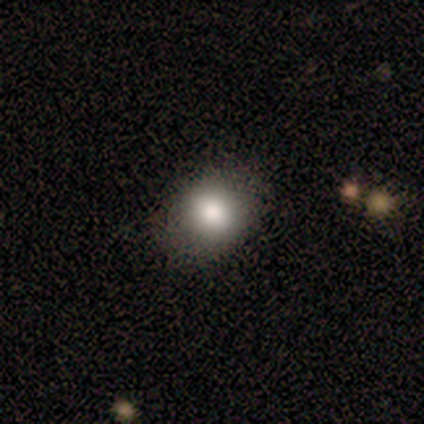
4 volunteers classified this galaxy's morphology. Smooth or featured? smooth (50%, tied with star or artifact)
How rounded? in between (100%)
Merging? none (100%)